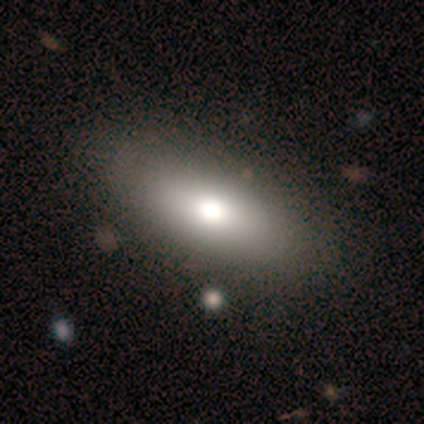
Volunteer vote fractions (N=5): Smooth or featured? smooth (60%)
How rounded? in between (100%)
Merging? none (100%)